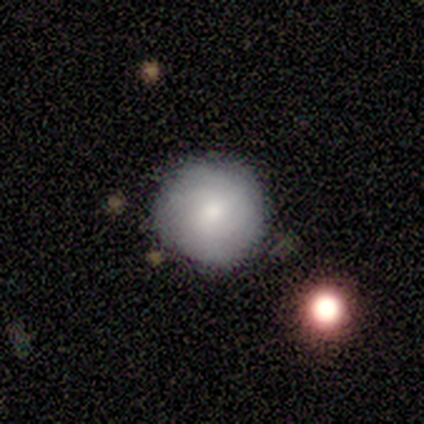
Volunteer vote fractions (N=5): Q: Smooth or featured?
A: smooth (80%); runner-up: star or artifact (20%)
Q: How rounded?
A: round (100%)
Q: Merging?
A: none (100%)